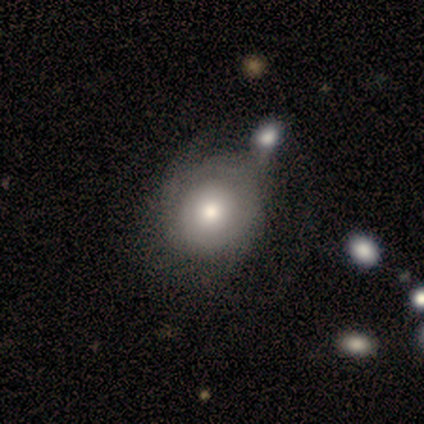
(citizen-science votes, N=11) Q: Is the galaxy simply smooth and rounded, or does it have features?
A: smooth — 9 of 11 (82%).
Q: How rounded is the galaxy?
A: round — 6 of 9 (67%).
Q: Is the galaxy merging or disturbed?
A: none — 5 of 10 (50%).